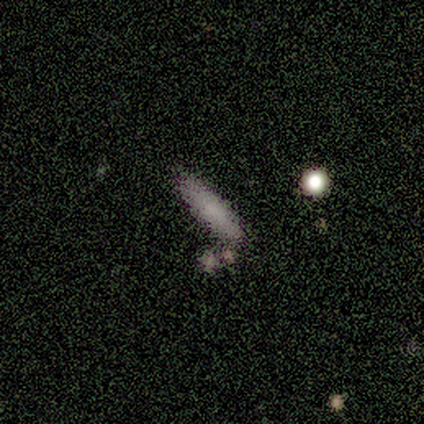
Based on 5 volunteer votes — Q: Smooth or featured?
A: smooth (80%); runner-up: featured or disk (20%)
Q: How rounded?
A: cigar-shaped (100%)
Q: Merging?
A: none (40%); tied with: minor disturbance (40%)